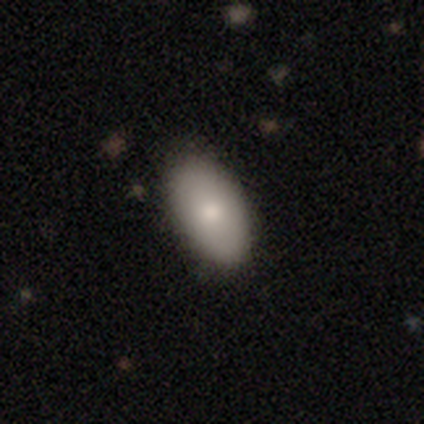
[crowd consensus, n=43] Smooth or featured: smooth — 79% (star or artifact — 12%)
How rounded: in between — 91% (round — 6%)
Merging: none — 79% (minor disturbance — 18%)